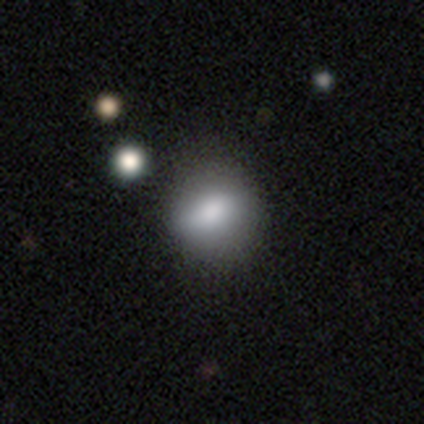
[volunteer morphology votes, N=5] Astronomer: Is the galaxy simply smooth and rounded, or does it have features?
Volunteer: smooth — 60%.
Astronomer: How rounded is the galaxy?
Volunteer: round — 67%.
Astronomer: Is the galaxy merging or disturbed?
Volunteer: none — 50%, tied with minor disturbance at 50%.